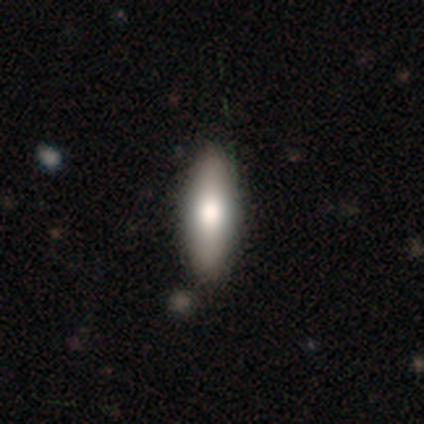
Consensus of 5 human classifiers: Overall: smooth (100%). How rounded: in between (80%). Merging: none (100%).